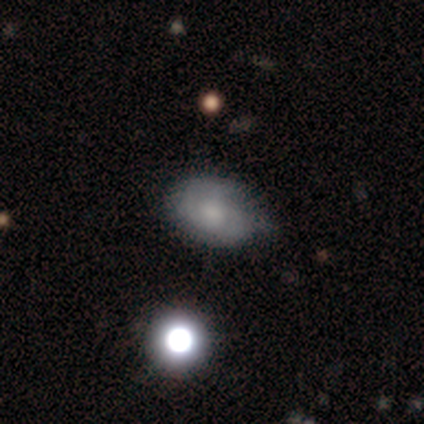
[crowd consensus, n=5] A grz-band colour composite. It shows a featured or disk galaxy (60%) with no bar (100%), no spiral arms (100%) and a large central bulge (33%, tied with moderate and small). Merging: none (60%).